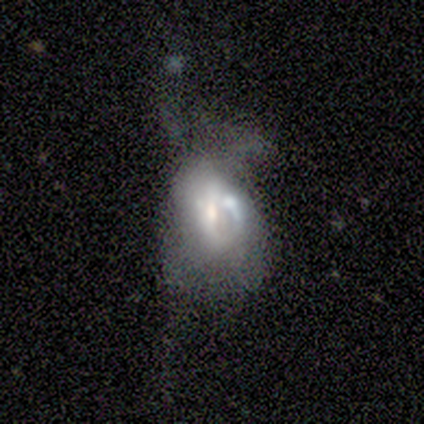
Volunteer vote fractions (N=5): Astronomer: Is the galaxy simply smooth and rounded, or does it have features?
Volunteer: smooth — 40%, tied with featured or disk at 40%.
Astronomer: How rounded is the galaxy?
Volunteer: round — 50%, tied with in between at 50%.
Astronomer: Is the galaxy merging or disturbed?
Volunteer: merger — 50%.